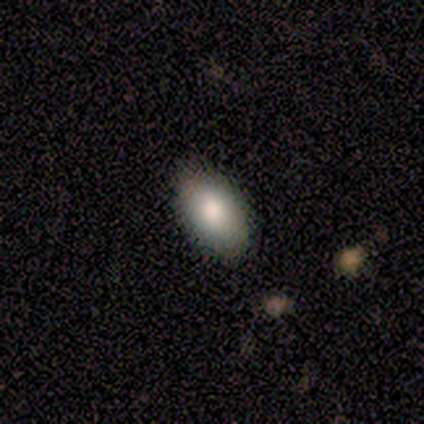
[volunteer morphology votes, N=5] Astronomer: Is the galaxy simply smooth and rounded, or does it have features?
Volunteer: smooth — 80%.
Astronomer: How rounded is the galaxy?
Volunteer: in between — 100%.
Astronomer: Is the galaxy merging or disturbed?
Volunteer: none — 75%.